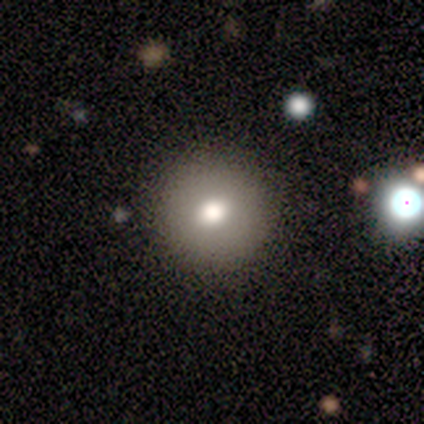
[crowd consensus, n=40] Smooth or featured?
  - smooth: 78% *
  - featured or disk: 15%
  - star or artifact: 8%
How rounded?
  - round: 97% *
  - in between: 3%
  - cigar-shaped: 0%
Merging?
  - none: 92% *
  - minor disturbance: 3%
  - major disturbance: 3%
  - merger: 3%